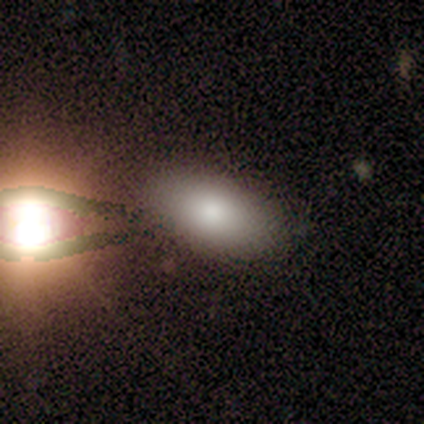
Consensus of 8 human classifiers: Morphology: type=smooth (50%); roundness=in between (100%); merging=none (57%).